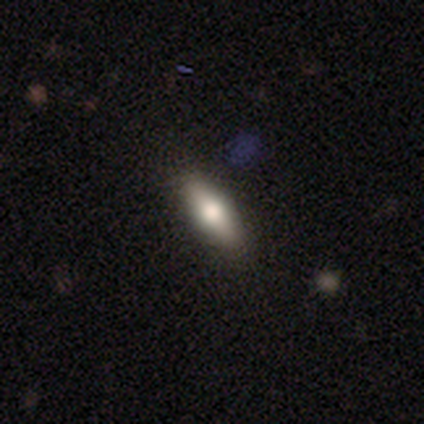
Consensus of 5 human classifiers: Smooth or featured? 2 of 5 (40%, tied with featured or disk) said smooth. How rounded? 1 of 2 (50%, tied with cigar-shaped) said in between. Merging? 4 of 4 (100%) said none.